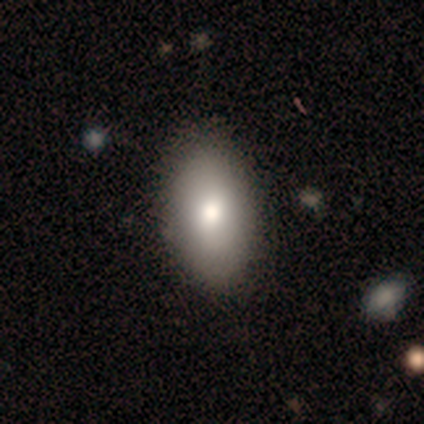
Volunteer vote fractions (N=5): A featured or disk galaxy (80%) with no bar (100%), 2 (100%) tight (100%) spiral arms (67%) and a moderate central bulge (67%).

Vote fractions:
- Smooth or featured? featured or disk: 80% / smooth: 20% / star or artifact: 0%
- Edge-on disk? no: 75% / yes: 25%
- Bar? no: 100% / strong: 0% / weak: 0%
- Spiral arms? yes: 67% / no: 33%
- Spiral winding? tight: 100% / medium: 0% / loose: 0%
- Spiral arm count? 2: 100% / 1: 0% / 3: 0% / 4: 0% / more than 4: 0% / can't tell: 0%
- Bulge size? moderate: 67% / dominant: 33% / large: 0% / small: 0% / none: 0%
- Merging? none: 80% / major disturbance: 20% / minor disturbance: 0% / merger: 0%